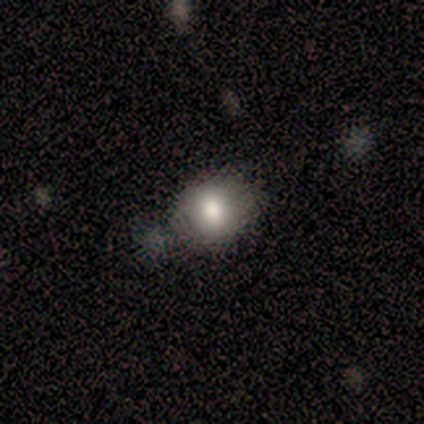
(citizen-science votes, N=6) smooth 100%, featured or disk 0%, star or artifact 0%. Down the decision tree: how rounded — in between (67%); merging — none (50%).